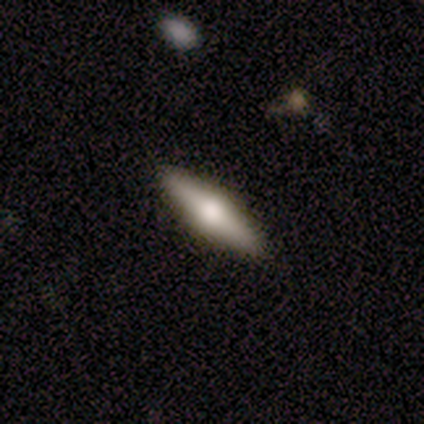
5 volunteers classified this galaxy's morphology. Smooth or featured? 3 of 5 (60%) said featured or disk. Edge-on disk? 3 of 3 (100%) said yes. Edge-on bulge? 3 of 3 (100%) said rounded. Merging? 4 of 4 (100%) said none.